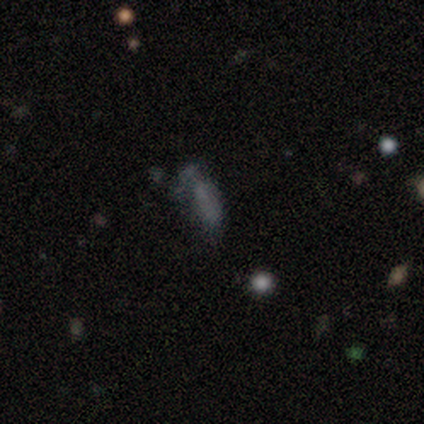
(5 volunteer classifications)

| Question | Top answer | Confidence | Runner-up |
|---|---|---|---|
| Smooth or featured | star or artifact | 60% | smooth (40%) |